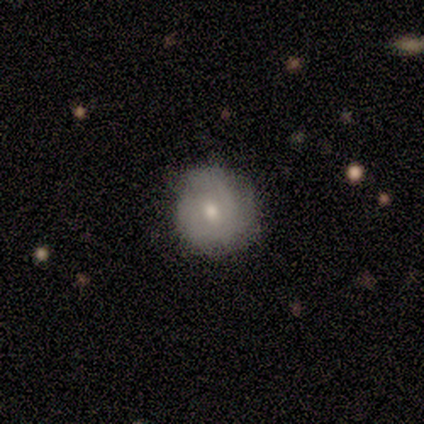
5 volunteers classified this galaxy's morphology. A featured or disk galaxy (60%) with no bar (100%), 2 (50%, tied with can't tell) tight (50%, tied with medium) spiral arms (67%) and a small central bulge (67%).

Vote fractions:
- Smooth or featured? featured or disk: 60% / smooth: 40% / star or artifact: 0%
- Edge-on disk? no: 100% / yes: 0%
- Bar? no: 100% / strong: 0% / weak: 0%
- Spiral arms? yes: 67% / no: 33%
- Spiral winding? tight: 50% (tied) / medium: 50% (tied) / loose: 0%
- Spiral arm count? 2: 50% (tied) / can't tell: 50% (tied) / 1: 0% / 3: 0% / 4: 0% / more than 4: 0%
- Bulge size? small: 67% / moderate: 33% / dominant: 0% / large: 0% / none: 0%
- Merging? none: 100% / minor disturbance: 0% / major disturbance: 0% / merger: 0%